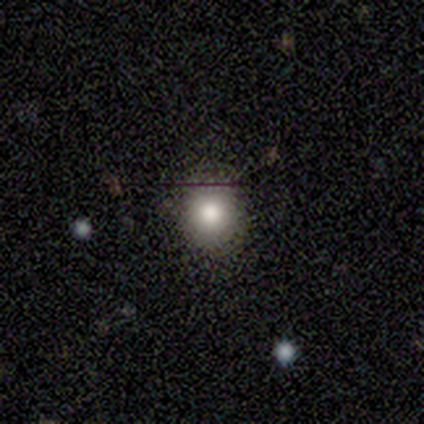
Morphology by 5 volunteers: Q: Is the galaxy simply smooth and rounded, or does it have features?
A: smooth — 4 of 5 (80%).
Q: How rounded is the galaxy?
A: round — 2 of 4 (50%, tied with in between).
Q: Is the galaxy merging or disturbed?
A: none — 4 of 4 (100%).